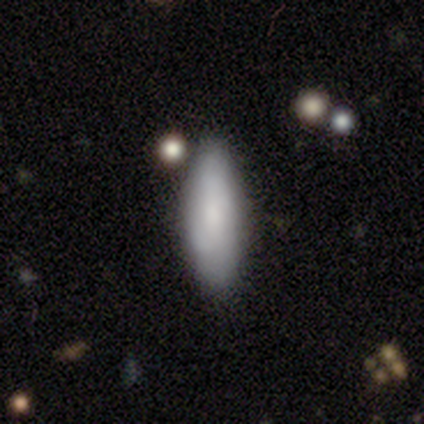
This appears to be a smooth galaxy with no disk features (80%) that is in between round and cigar-shaped (50%, tied with cigar-shaped). Merging: none (80%).